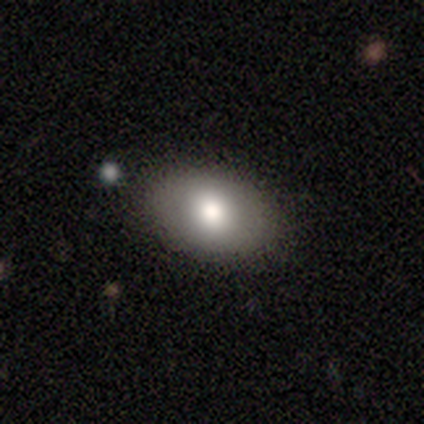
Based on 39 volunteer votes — Overall: smooth (67%). How rounded: in between (96%). Merging: none (97%).